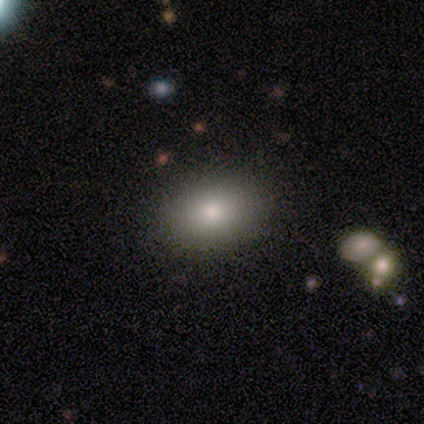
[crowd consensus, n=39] A smooth galaxy with no disk features (67%) that is in between round and cigar-shaped (69%).

Vote fractions:
- Smooth or featured? smooth: 67% / featured or disk: 21% / star or artifact: 13%
- How rounded? in between: 69% / round: 27% / cigar-shaped: 4%
- Merging? none: 88% / minor disturbance: 6% / major disturbance: 6% / merger: 0%